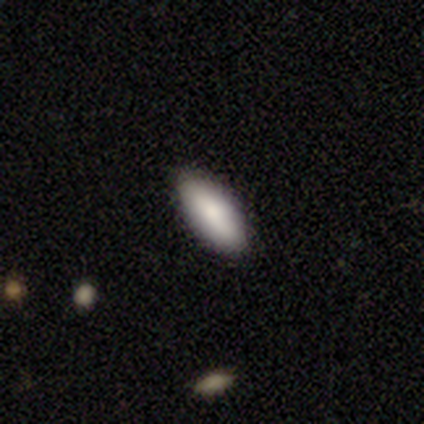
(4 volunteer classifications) Smooth or featured: smooth — 75% (featured or disk — 25%)
How rounded: in between — 67% (cigar-shaped — 33%)
Merging: none — 100%